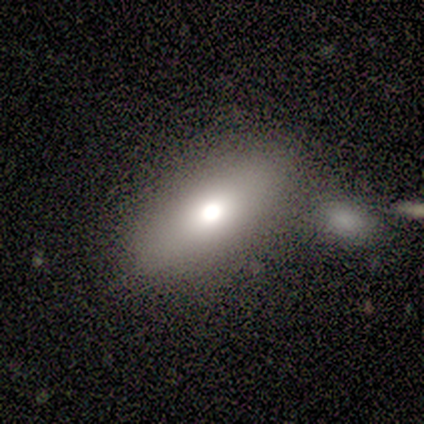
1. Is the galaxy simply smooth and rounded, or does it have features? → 100% smooth, 0% featured or disk, 0% star or artifact.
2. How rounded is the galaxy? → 100% in between, 0% round, 0% cigar-shaped.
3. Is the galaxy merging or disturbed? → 80% none, 20% merger, 0% minor disturbance, 0% major disturbance.